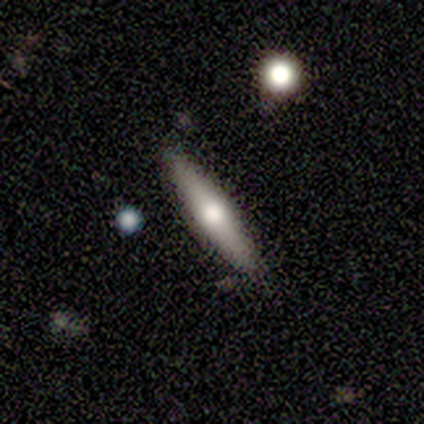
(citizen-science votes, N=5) smooth-or-featured: smooth: 60% | featured or disk: 20% | star or artifact: 20%
  how-rounded: cigar-shaped: 100% | round: 0% | in between: 0%
  merging: none: 100% | minor disturbance: 0% | major disturbance: 0% | merger: 0%